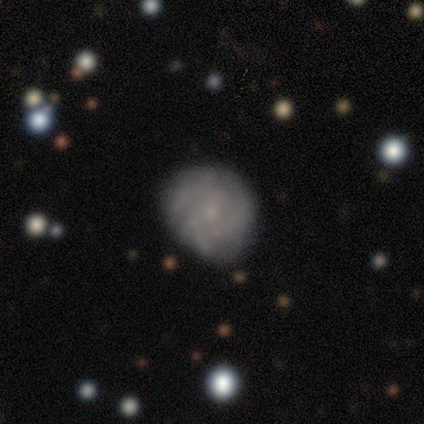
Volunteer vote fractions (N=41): Morphology: type=featured or disk (56%); edge-on=no (100%); bar=no (87%); spiral arms=yes (91%); winding=tight (81%); arm count=3 (38%); bulge=small (83%); merging=none (74%).